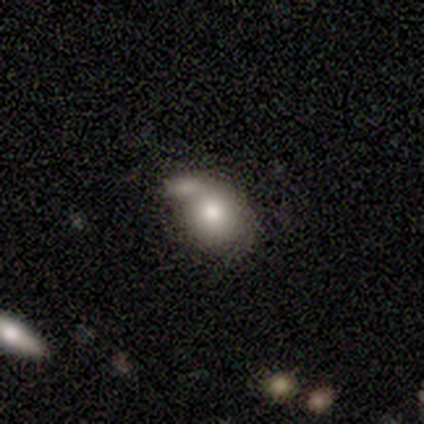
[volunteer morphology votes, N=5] A smooth galaxy with no disk features (100%) that is in between round and cigar-shaped (60%).

Vote fractions:
- Smooth or featured? smooth: 100% / featured or disk: 0% / star or artifact: 0%
- How rounded? in between: 60% / round: 40% / cigar-shaped: 0%
- Merging? none: 60% / merger: 40% / minor disturbance: 0% / major disturbance: 0%